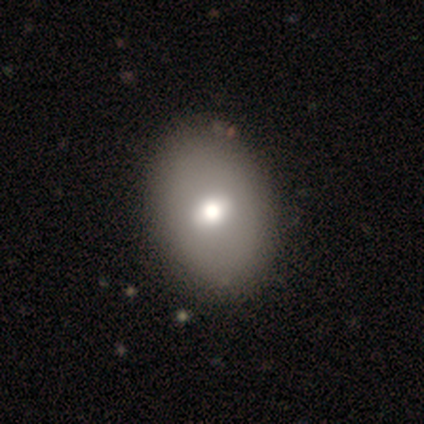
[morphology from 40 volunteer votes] smooth_or_featured: smooth (p=0.47) [tied with: featured or disk p=0.47]
how_rounded: in between (p=0.89) [alt: round p=0.11]
merging: none (p=0.68) [alt: minor disturbance p=0.03]